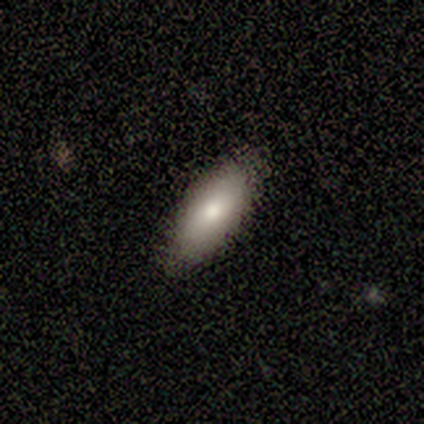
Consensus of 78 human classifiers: smooth-or-featured: smooth: 82% | featured or disk: 15% | star or artifact: 3%
  how-rounded: in between: 91% | cigar-shaped: 9% | round: 0%
  merging: none: 46% | minor disturbance: 4% | major disturbance: 0% | merger: 0%